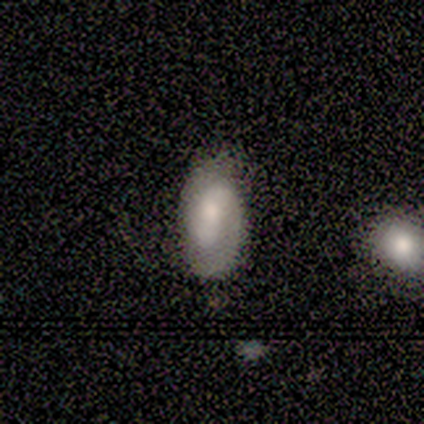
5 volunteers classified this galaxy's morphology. type=smooth (40%, tied with star or artifact); roundness=in between (100%); merging=none (67%).